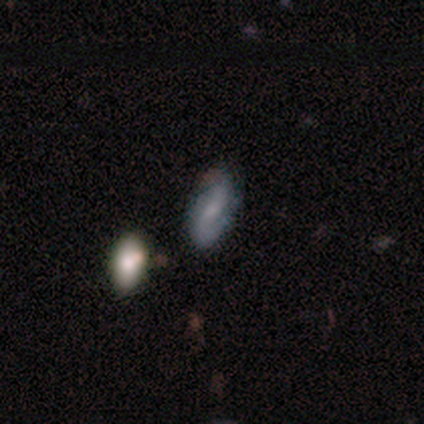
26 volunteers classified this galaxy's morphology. Overall: featured or disk (46%; smooth 38%). Edge-on disk: no (100%). Bar: no (50%; weak 33%). Spiral arms: yes (100%). Spiral arm count: 2 (92%). Spiral winding: loose (42%; medium 33%). Bulge size: small (58%; none 33%). Merging: none (91%).